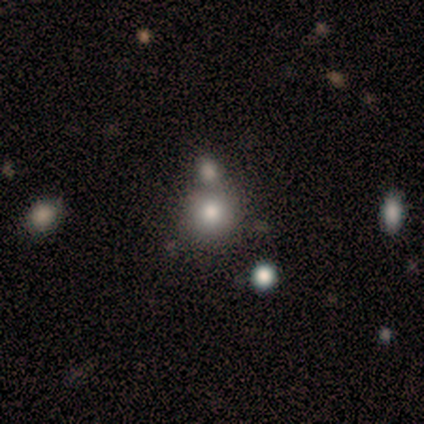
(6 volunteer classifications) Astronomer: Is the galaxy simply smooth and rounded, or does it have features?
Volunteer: smooth — 83%.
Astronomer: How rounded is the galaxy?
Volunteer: round — 100%.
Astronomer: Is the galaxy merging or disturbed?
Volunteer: none — 40%, tied with merger at 40%.